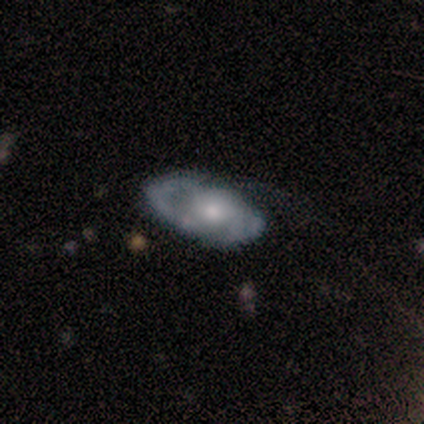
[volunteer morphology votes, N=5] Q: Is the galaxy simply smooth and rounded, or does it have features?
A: smooth — 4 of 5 (80%).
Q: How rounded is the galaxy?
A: in between — 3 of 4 (75%).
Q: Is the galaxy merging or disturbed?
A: none — 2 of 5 (40%, tied with minor disturbance).